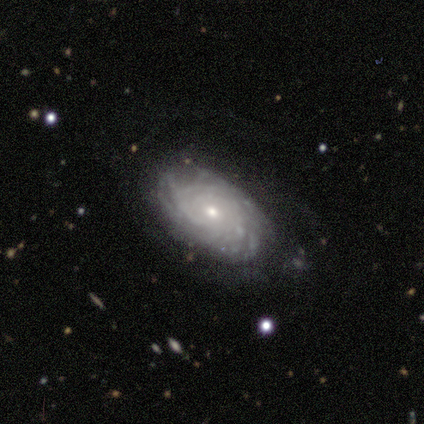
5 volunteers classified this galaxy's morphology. This is clearly a featured or disk galaxy (80%). It is clearly not viewed edge-on (100%). Bar: possibly weak (50%, tied with no). Spiral arm pattern: clearly yes (100%). Spiral arm count: possibly can't tell (50%). Spiral winding: possibly tight (50%). Central bulge: likely small (75%). Merging: marginally minor disturbance (40%, tied with major disturbance).